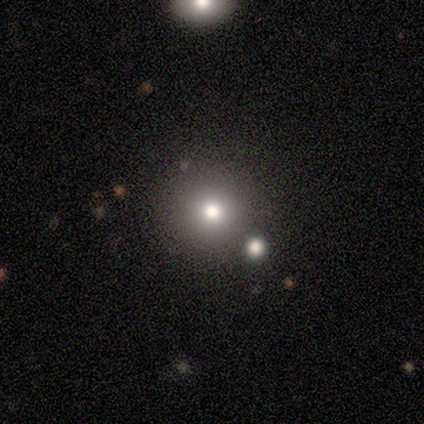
Smooth or featured? smooth (100%)
How rounded? round (100%)
Merging? none (86%)